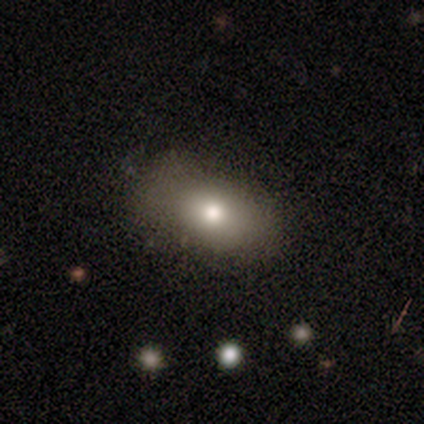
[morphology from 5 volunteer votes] Smooth or featured? smooth (60%)
How rounded? in between (100%)
Merging? none (60%)